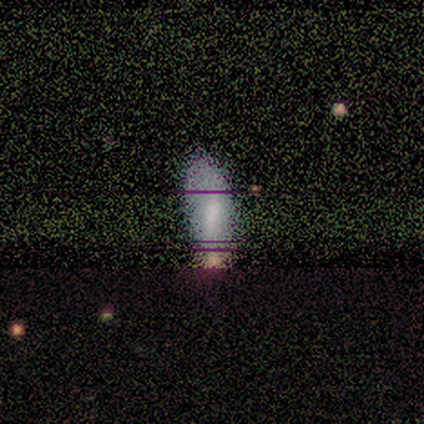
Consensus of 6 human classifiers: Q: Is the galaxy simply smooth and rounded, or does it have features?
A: star or artifact — 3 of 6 (50%).